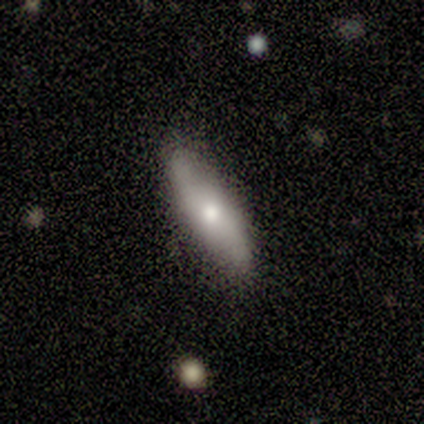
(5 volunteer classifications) Smooth or featured? smooth (60%)
How rounded? cigar-shaped (67%)
Merging? none (80%)